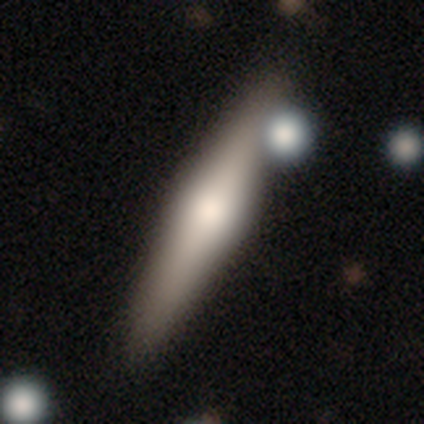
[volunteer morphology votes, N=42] This is possibly a featured or disk galaxy (48%). It is clearly viewed edge-on (100%). Edge-on bulge: clearly rounded (90%). Merging: likely none (79%).